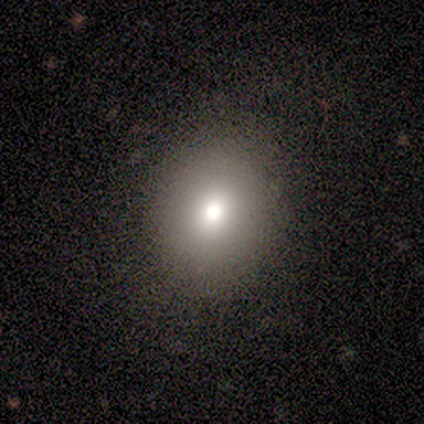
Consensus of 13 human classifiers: Morphology: type=smooth (69%); roundness=round (67%); merging=none (91%).